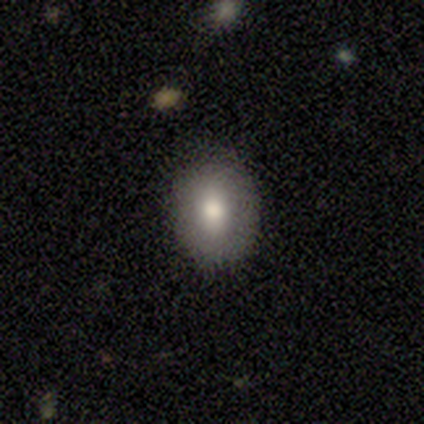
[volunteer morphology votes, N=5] This is likely a smooth galaxy (60%). How rounded: likely round (67%). Merging: clearly none (80%).